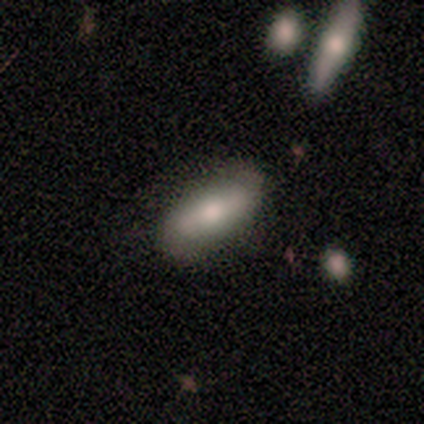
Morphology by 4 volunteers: smooth_or_featured: smooth (p=0.75) [alt: featured or disk p=0.25]
how_rounded: in between (p=1.00)
merging: none (p=0.75) [alt: minor disturbance p=0.25]